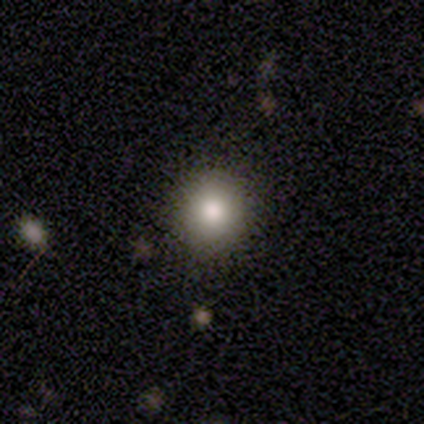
This appears to be a smooth galaxy with no disk features (100%) that is round (60%). Merging: none (80%).